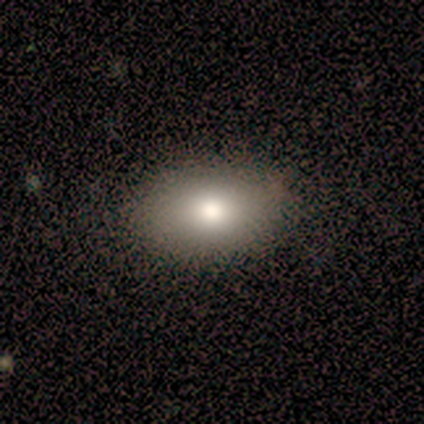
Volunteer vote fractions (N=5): smooth_or_featured: smooth (p=1.00)
how_rounded: in between (p=1.00)
merging: none (p=0.80) [alt: minor disturbance p=0.20]